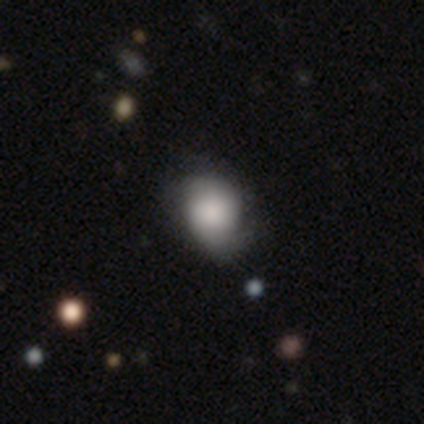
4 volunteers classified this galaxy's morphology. Smooth or featured? 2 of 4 (50%, tied with featured or disk) said smooth. How rounded? 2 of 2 (100%) said in between. Merging? 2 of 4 (50%, tied with minor disturbance) said none.